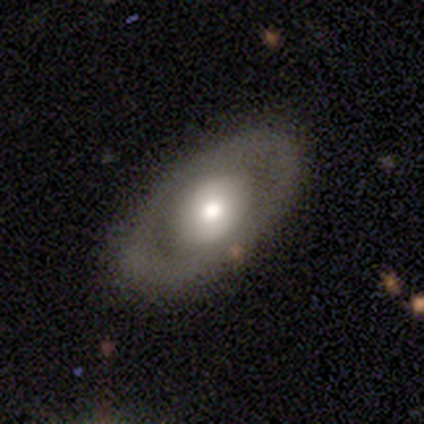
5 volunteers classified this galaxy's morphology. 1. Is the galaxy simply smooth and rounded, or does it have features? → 60% smooth, 40% featured or disk, 0% star or artifact.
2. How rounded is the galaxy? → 67% round, 33% in between, 0% cigar-shaped.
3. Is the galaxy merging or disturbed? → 100% none, 0% minor disturbance, 0% major disturbance, 0% merger.